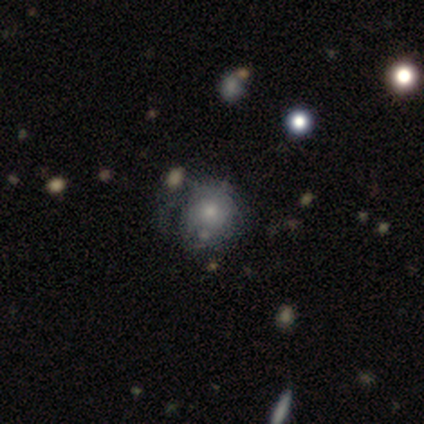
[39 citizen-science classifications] This appears to be a smooth galaxy with no disk features (49%) that is round (84%). Merging: none (54%).